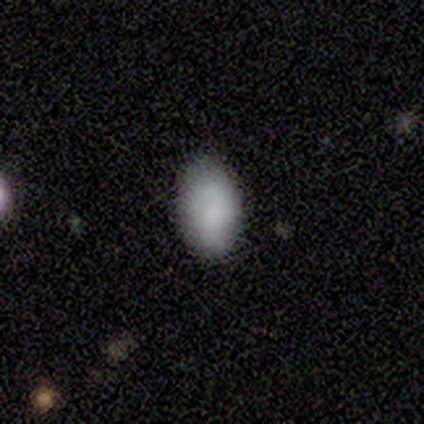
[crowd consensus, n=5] Smooth or featured: smooth — 100%
How rounded: in between — 100%
Merging: none — 60% (minor disturbance — 20%)